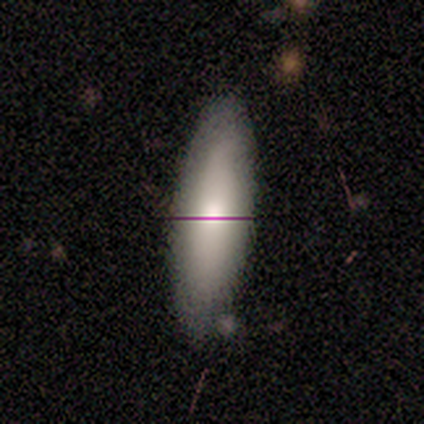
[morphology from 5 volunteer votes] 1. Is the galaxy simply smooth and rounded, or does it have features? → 100% smooth, 0% featured or disk, 0% star or artifact.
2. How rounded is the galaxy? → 60% in between, 40% cigar-shaped, 0% round.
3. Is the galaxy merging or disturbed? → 60% minor disturbance, 40% none, 0% major disturbance, 0% merger.